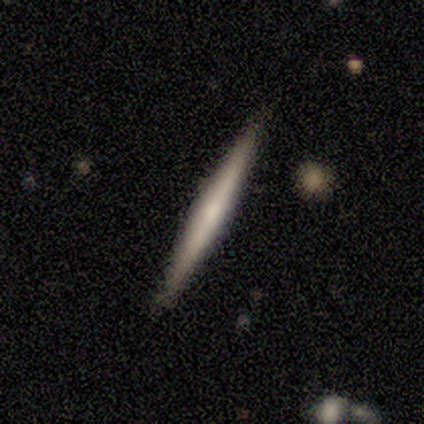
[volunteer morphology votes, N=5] smooth 60%, featured or disk 40%, star or artifact 0%. Down the decision tree: how rounded — cigar-shaped (100%); merging — none (80%).